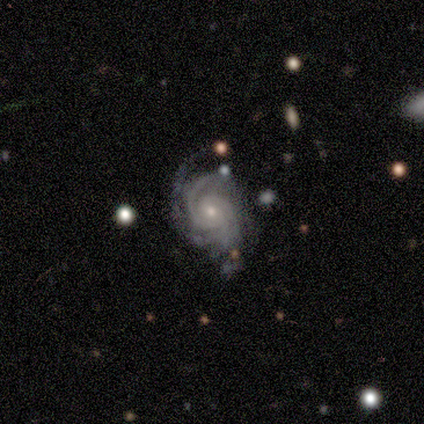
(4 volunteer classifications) A featured or disk galaxy (100%) with no bar (75%), 2 (50%, tied with 3) tight (50%) spiral arms (100%) and a moderate central bulge (50%, tied with small).

Vote fractions:
- Smooth or featured? featured or disk: 100% / smooth: 0% / star or artifact: 0%
- Edge-on disk? no: 100% / yes: 0%
- Bar? no: 75% / weak: 25% / strong: 0%
- Spiral arms? yes: 100% / no: 0%
- Spiral winding? tight: 50% / medium: 25% / loose: 25%
- Spiral arm count? 2: 50% (tied) / 3: 50% (tied) / 1: 0% / 4: 0% / more than 4: 0% / can't tell: 0%
- Bulge size? moderate: 50% (tied) / small: 50% (tied) / dominant: 0% / large: 0% / none: 0%
- Merging? major disturbance: 75% / none: 25% / minor disturbance: 0% / merger: 0%